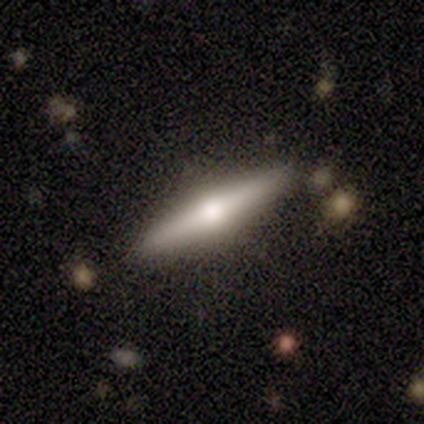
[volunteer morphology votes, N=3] featured or disk 67%, smooth 33%, star or artifact 0%. Down the decision tree: edge-on disk — yes (100%); edge-on bulge — rounded (100%); merging — none (100%).